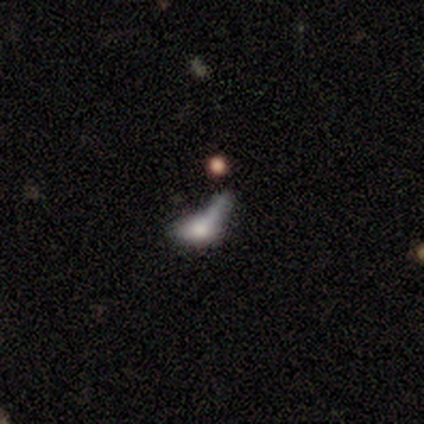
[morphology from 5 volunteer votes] smooth_or_featured: featured or disk (p=0.60) [alt: smooth p=0.40]
disk_edge_on: no (p=0.67) [alt: yes p=0.33]
bar: no (p=1.00)
has_spiral_arms: no (p=1.00)
bulge_size: moderate (p=0.50) [tied with: small p=0.50]
merging: major disturbance (p=0.60) [alt: minor disturbance p=0.20]